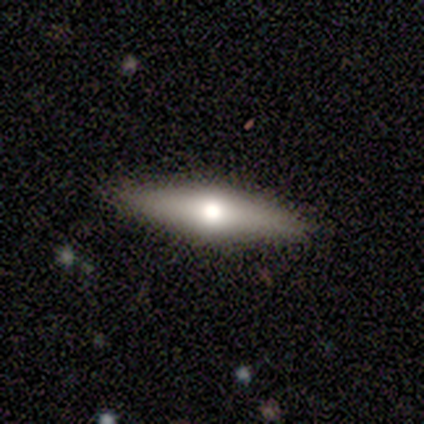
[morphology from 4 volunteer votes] type=featured or disk (75%); edge-on=yes (100%); edge-on bulge=rounded (100%); merging=none (100%).